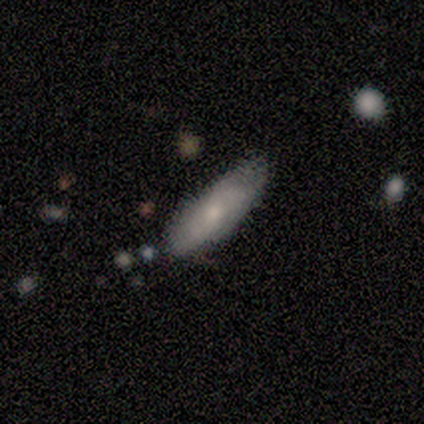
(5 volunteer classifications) A smooth galaxy with no disk features (80%) that is in between round and cigar-shaped (50%, tied with cigar-shaped).

Vote fractions:
- Smooth or featured? smooth: 80% / featured or disk: 20% / star or artifact: 0%
- How rounded? in between: 50% (tied) / cigar-shaped: 50% (tied) / round: 0%
- Merging? minor disturbance: 60% / none: 40% / major disturbance: 0% / merger: 0%